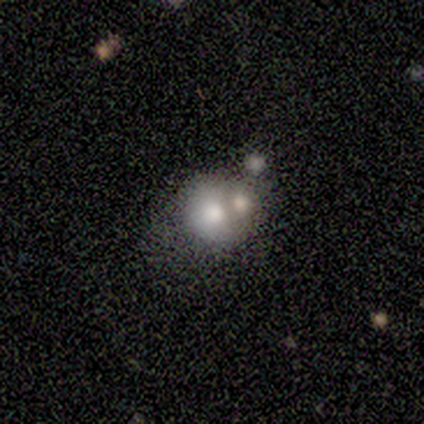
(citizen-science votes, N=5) smooth-or-featured: smooth: 80% | featured or disk: 20% | star or artifact: 0%
  how-rounded: round: 75% | in between: 25% | cigar-shaped: 0%
  merging: merger: 80% | minor disturbance: 20% | none: 0% | major disturbance: 0%